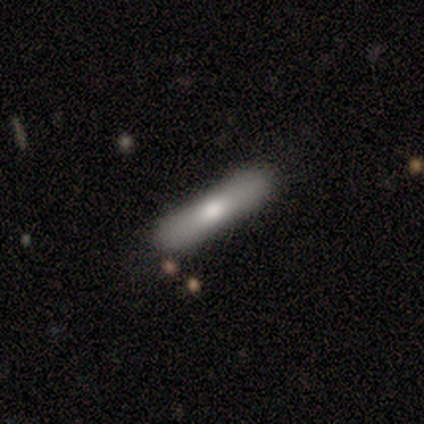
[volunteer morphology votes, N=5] Smooth or featured?
  - smooth: 60% *
  - featured or disk: 40%
  - star or artifact: 0%
How rounded?
  - cigar-shaped: 100% *
  - round: 0%
  - in between: 0%
Merging?
  - none: 80% *
  - merger: 20%
  - minor disturbance: 0%
  - major disturbance: 0%